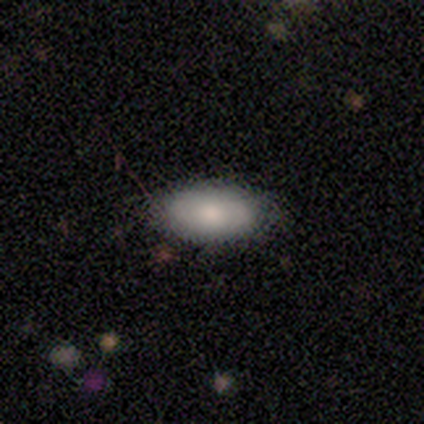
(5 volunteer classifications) A smooth galaxy with no disk features (80%) that is in between round and cigar-shaped (75%). Merging: none (80%).